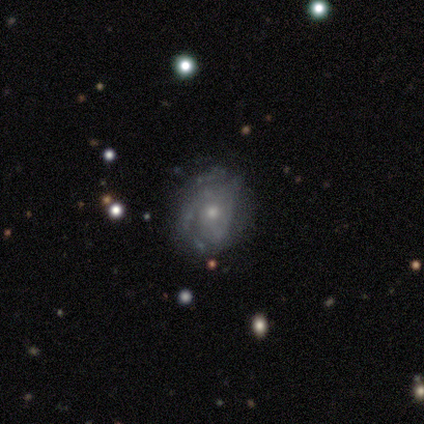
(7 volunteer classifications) Volunteers were most divided on "spiral winding" (2-way tie): tight: 50%, loose: 50%, medium: 0%. More confident: edge-on disk — no (100%); merging — none (83%); bar — no (80%); spiral arms — yes (80%); bulge size — small (80%); smooth or featured — featured or disk (71%); spiral arm count — can't tell (50%).